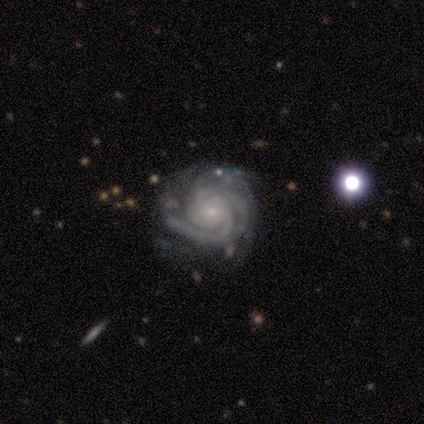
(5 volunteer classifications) This appears to be a featured or disk galaxy (100%) with no bar (80%), tight (80%) spiral arms (100%) and a small central bulge (80%). Merging: none (40%, tied with minor disturbance).